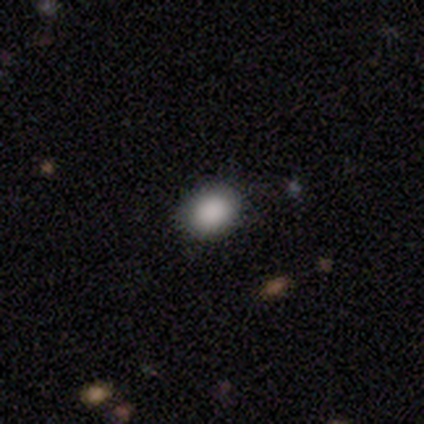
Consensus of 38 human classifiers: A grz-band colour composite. It shows a smooth galaxy with no disk features (87%) that is in between round and cigar-shaped (58%). Merging: none (75%).